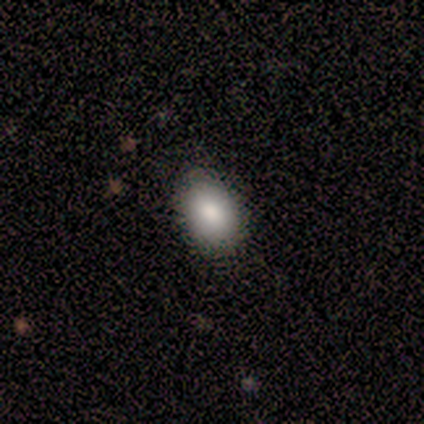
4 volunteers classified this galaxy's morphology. smooth_or_featured: smooth (p=1.00)
how_rounded: round (p=0.50) [tied with: in between p=0.50]
merging: none (p=1.00)